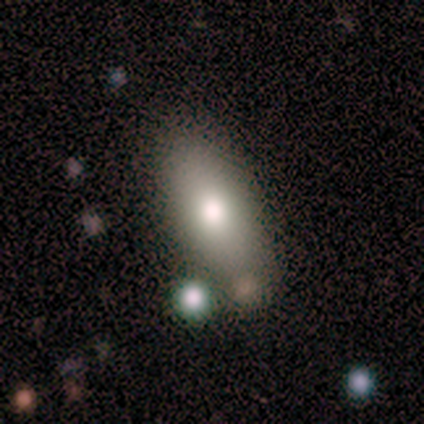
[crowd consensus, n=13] A smooth galaxy with no disk features (92%) that is in between round and cigar-shaped (75%).

Vote fractions:
- Smooth or featured? smooth: 92% / featured or disk: 8% / star or artifact: 0%
- How rounded? in between: 75% / cigar-shaped: 25% / round: 0%
- Merging? none: 77% / major disturbance: 15% / minor disturbance: 8% / merger: 0%